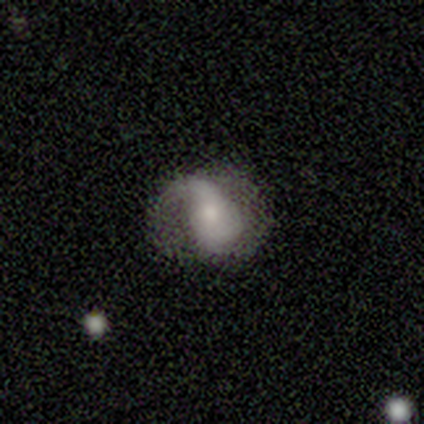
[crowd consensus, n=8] Smooth or featured: featured or disk — 62% (smooth — 38%)
Edge-on disk: no — 100%
Bar: no — 60% (weak — 40%)
Spiral arms: yes — 80% (no — 20%)
Spiral winding: medium — 75% (loose — 25%)
Spiral arm count: 2 — 50% (1 — 25%)
Bulge size: moderate — 60% (small — 40%)
Merging: none — 50% (minor disturbance — 38%)